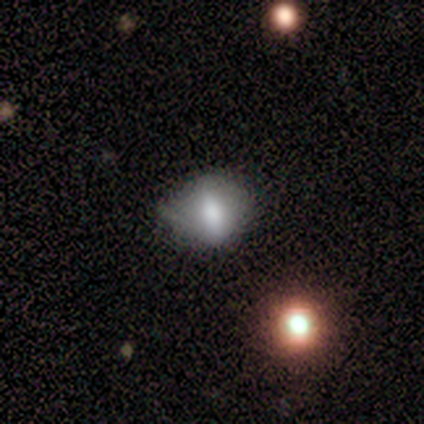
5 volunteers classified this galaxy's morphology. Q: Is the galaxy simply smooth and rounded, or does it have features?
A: smooth — 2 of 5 (40%, tied with featured or disk).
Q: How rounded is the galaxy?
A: round — 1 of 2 (50%, tied with in between).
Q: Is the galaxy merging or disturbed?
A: major disturbance — 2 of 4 (50%).